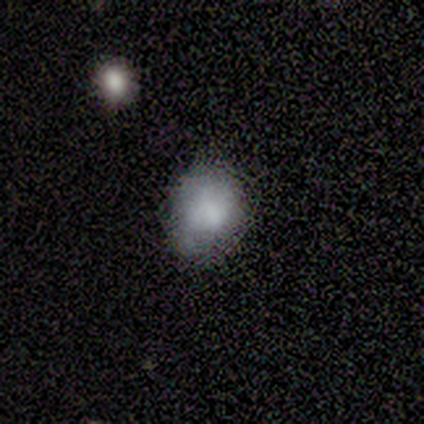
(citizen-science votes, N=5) Overall: smooth (80%). How rounded: round (75%). Merging: minor disturbance (60%; none 40%).